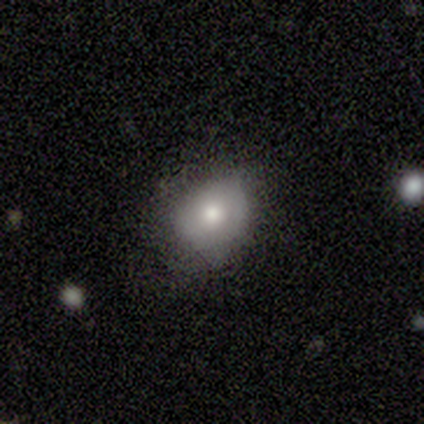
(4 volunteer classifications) smooth 75%, featured or disk 25%, star or artifact 0%. Down the decision tree: how rounded — round (67%); merging — none (50%, tied with minor disturbance).